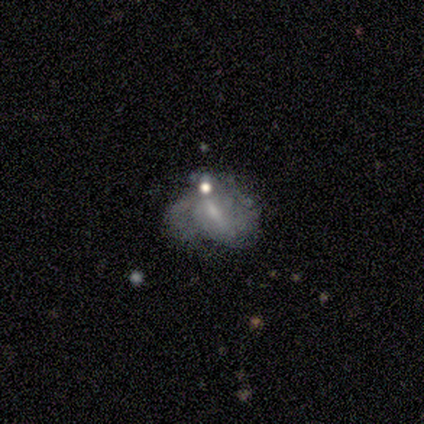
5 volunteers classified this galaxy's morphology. smooth_or_featured: featured or disk (p=0.60) [alt: smooth p=0.40]
disk_edge_on: no (p=1.00)
bar: weak (p=0.67) [alt: no p=0.33]
has_spiral_arms: yes (p=0.67) [alt: no p=0.33]
spiral_winding: tight (p=0.50) [tied with: medium p=0.50]
spiral_arm_count: 2 (p=0.50) [tied with: can't tell p=0.50]
bulge_size: moderate (p=0.33) [tied with: small p=0.33, none p=0.33]
merging: minor disturbance (p=0.40) [alt: none p=0.20]